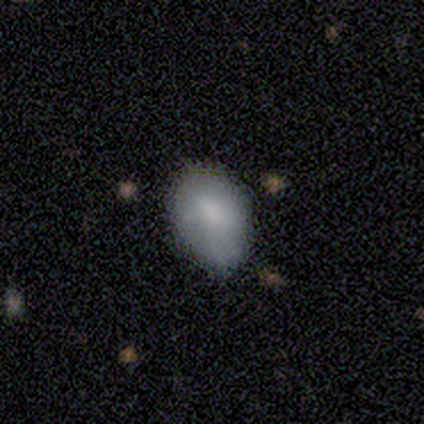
Smooth or featured: smooth — 60% (featured or disk — 20%)
How rounded: in between — 100%
Merging: minor disturbance — 100%